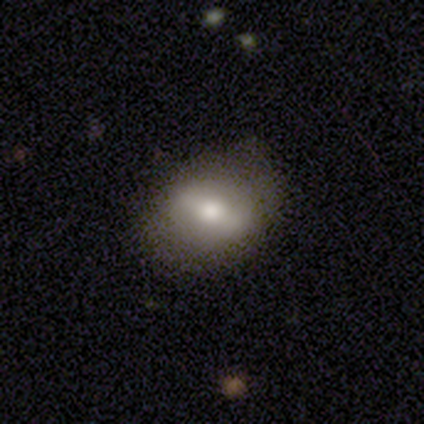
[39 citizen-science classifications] Morphology: type=smooth (51%); roundness=in between (55%); merging=none (67%).